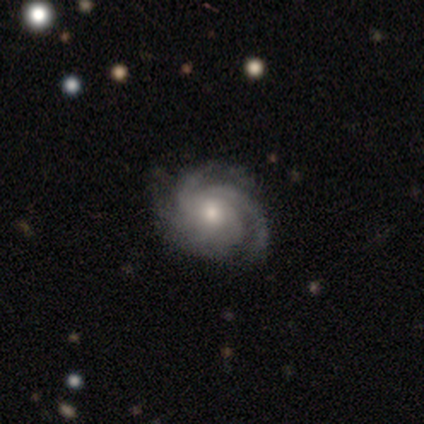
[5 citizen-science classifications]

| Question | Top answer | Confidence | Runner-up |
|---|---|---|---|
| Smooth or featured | featured or disk | 100% | — |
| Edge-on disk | no | 100% | — |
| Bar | no | 80% | weak (20%) |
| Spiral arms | yes | 100% | — |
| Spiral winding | tight | 60% | medium (40%) |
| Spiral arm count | can't tell | 60% | 3 (40%) |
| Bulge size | small | 60% | moderate (40%) |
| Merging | none | 80% | minor disturbance (20%) |